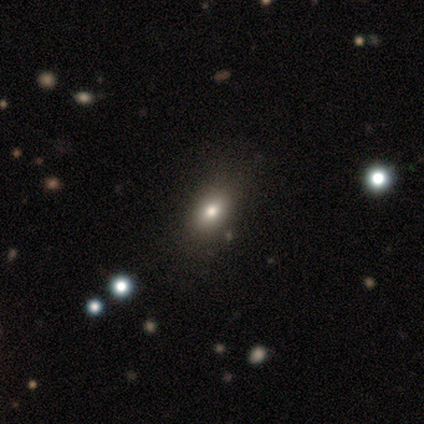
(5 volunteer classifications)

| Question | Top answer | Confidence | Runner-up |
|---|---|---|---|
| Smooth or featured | smooth | 60% | featured or disk (20%) |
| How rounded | in between | 100% | — |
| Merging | none | 75% | minor disturbance (25%) |